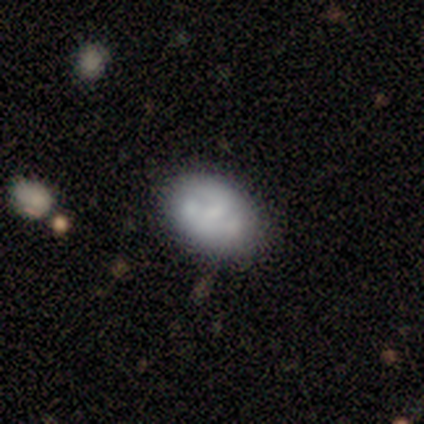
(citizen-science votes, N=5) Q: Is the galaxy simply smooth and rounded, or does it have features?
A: featured or disk — 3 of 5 (60%).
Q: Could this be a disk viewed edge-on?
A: no — 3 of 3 (100%).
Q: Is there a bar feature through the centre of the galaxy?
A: no — 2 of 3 (67%).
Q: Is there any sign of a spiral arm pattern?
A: no — 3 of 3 (100%).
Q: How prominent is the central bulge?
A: moderate — 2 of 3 (67%).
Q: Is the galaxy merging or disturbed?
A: none — 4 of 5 (80%).